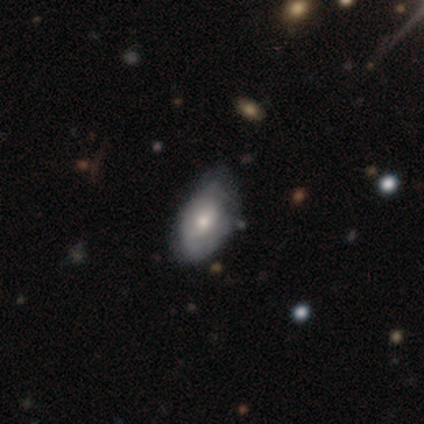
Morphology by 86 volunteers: Smooth or featured: smooth — 50% (featured or disk — 40%)
How rounded: in between — 93% (round — 7%)
Merging: none — 47% (minor disturbance — 44%)